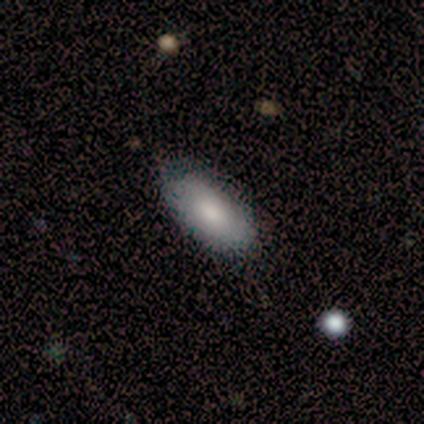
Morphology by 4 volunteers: Smooth or featured?
  - smooth: 75% *
  - featured or disk: 25%
  - star or artifact: 0%
How rounded?
  - in between: 100% *
  - round: 0%
  - cigar-shaped: 0%
Merging?
  - none: 100% *
  - minor disturbance: 0%
  - major disturbance: 0%
  - merger: 0%